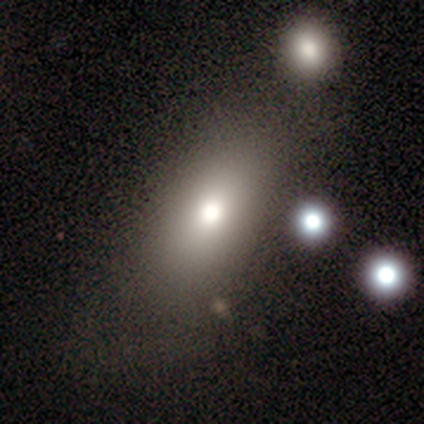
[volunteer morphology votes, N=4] Smooth or featured: smooth — 75% (star or artifact — 25%)
How rounded: in between — 100%
Merging: none — 67% (minor disturbance — 33%)